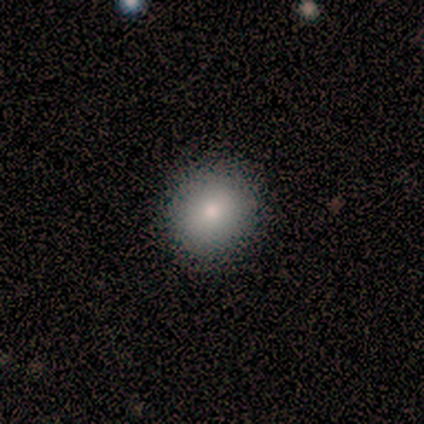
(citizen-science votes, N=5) This appears to be a smooth galaxy with no disk features (100%) that is round (100%). Merging: none (100%).